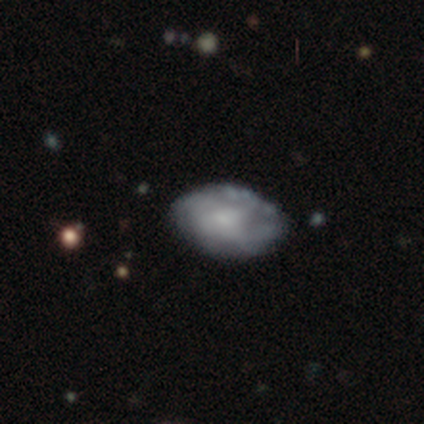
A smooth galaxy with no disk features (60%) that is in between round and cigar-shaped (100%).

Vote fractions:
- Smooth or featured? smooth: 60% / featured or disk: 20% / star or artifact: 20%
- How rounded? in between: 100% / round: 0% / cigar-shaped: 0%
- Merging? none: 75% / minor disturbance: 25% / major disturbance: 0% / merger: 0%